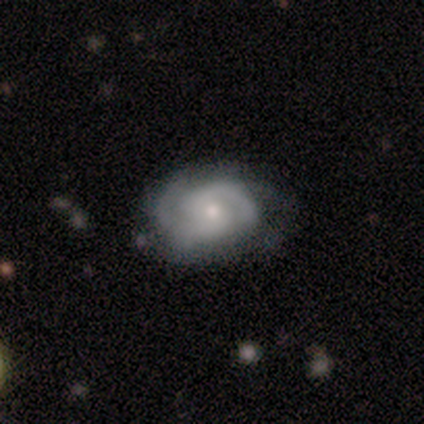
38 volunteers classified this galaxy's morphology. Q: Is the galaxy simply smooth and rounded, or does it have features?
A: featured or disk — 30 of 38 (79%).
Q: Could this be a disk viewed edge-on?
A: no — 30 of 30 (100%).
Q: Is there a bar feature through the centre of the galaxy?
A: no — 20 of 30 (67%).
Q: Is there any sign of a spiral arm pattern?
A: yes — 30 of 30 (100%).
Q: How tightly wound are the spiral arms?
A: tight — 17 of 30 (57%).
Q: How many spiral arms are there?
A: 2 — 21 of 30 (70%).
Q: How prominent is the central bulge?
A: small — 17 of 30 (57%).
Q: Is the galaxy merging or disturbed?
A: none — 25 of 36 (69%).